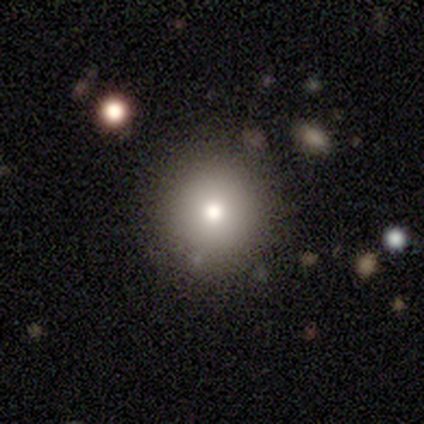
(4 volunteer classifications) Smooth or featured: smooth — 75% (featured or disk — 25%)
How rounded: round — 100%
Merging: none — 100%